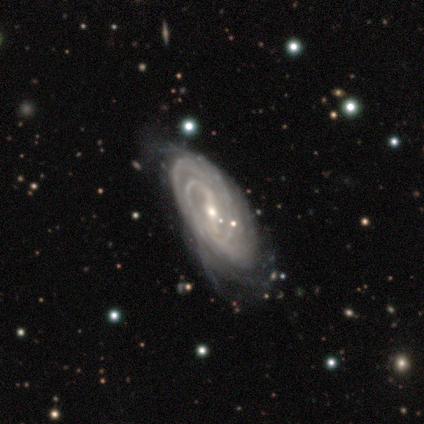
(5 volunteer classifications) Smooth or featured? featured or disk (100%)
Edge-on disk? no (80%)
Bar? strong (50%, tied with weak)
Spiral arms? yes (100%)
Spiral winding? tight (50%)
Spiral arm count? 2 (50%)
Bulge size? small (100%)
Merging? minor disturbance (100%)